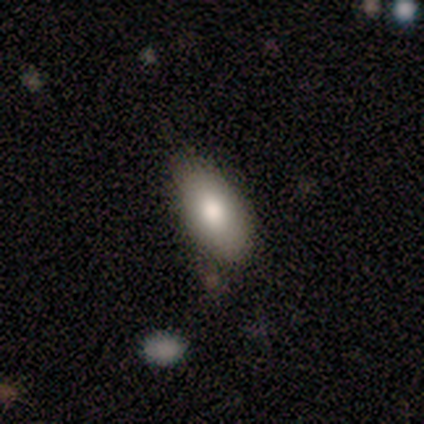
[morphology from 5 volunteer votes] A smooth galaxy with no disk features (100%) that is in between round and cigar-shaped (100%). Merging: none (80%).